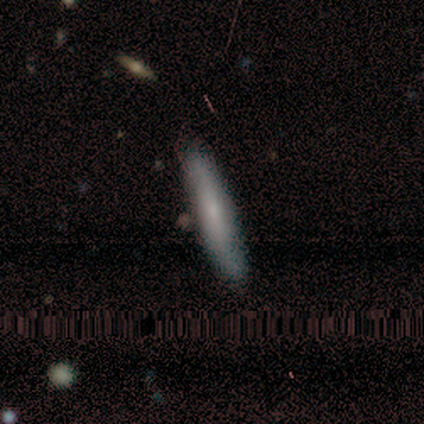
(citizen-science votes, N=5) Q: Smooth or featured?
A: smooth (60%); runner-up: featured or disk (20%)
Q: How rounded?
A: cigar-shaped (100%)
Q: Merging?
A: none (100%)